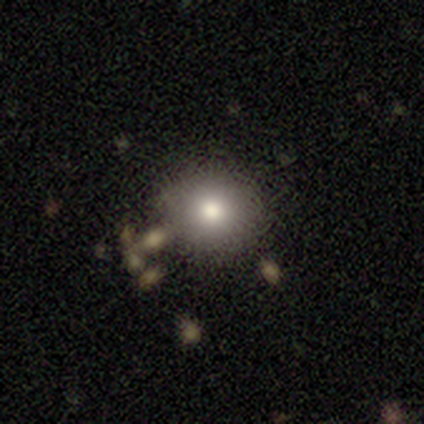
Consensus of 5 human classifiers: A smooth galaxy with no disk features (80%) that is round (100%). Merging: none (50%).